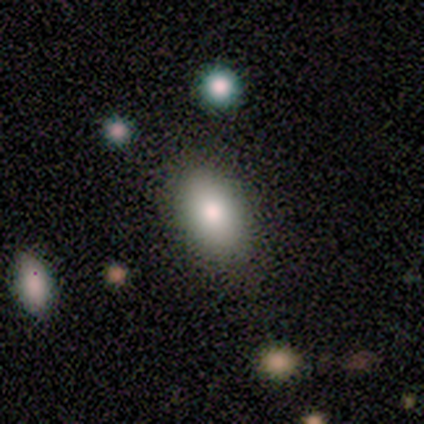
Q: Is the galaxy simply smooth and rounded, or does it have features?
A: smooth — 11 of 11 (100%).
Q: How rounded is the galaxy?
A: in between — 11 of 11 (100%).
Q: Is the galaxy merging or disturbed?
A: none — 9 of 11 (82%).